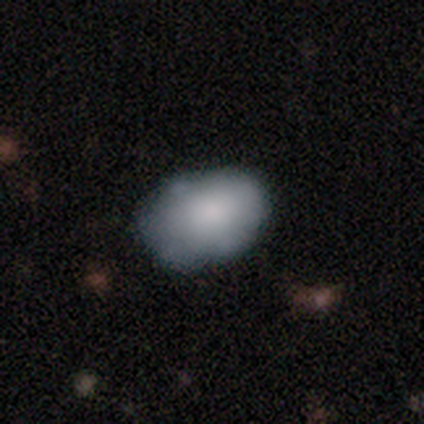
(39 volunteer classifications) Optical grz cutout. It shows a smooth galaxy with no disk features (79%) that is in between round and cigar-shaped (84%). Merging: none (51%).